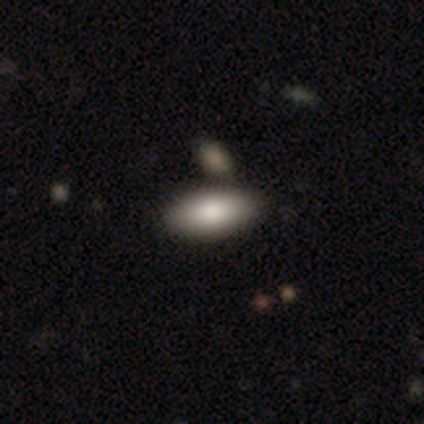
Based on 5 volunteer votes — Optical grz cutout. It shows a smooth galaxy with no disk features (100%) that is in between round and cigar-shaped (100%). Merging: none (80%).